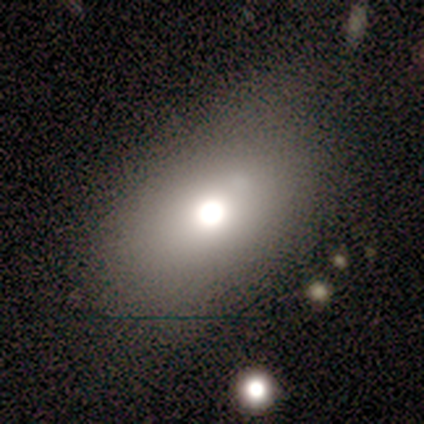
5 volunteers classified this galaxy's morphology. Volunteers were most divided on "smooth or featured": smooth: 60%, featured or disk: 40%, star or artifact: 0%. More confident: how rounded — in between (67%); merging — major disturbance (60%).